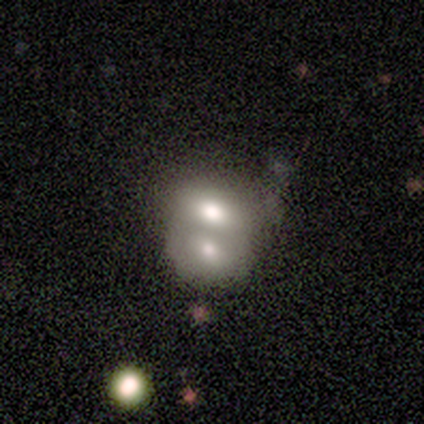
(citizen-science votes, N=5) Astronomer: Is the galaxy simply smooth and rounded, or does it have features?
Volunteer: smooth — 100%.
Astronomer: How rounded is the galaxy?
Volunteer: in between — 80%.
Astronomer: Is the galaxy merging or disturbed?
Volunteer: merger — 100%.